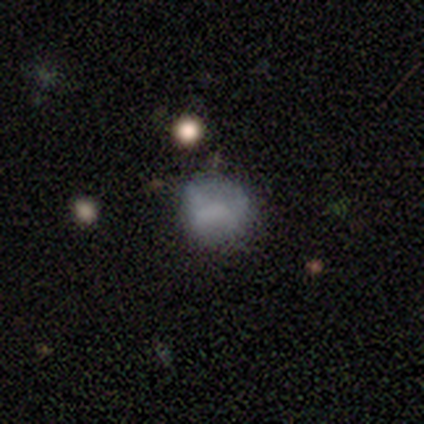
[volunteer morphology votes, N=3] Smooth or featured: smooth — 33% (tied with featured or disk — 33%; star or artifact — 33%)
How rounded: round — 100%
Merging: minor disturbance — 50% (tied with merger — 50%)